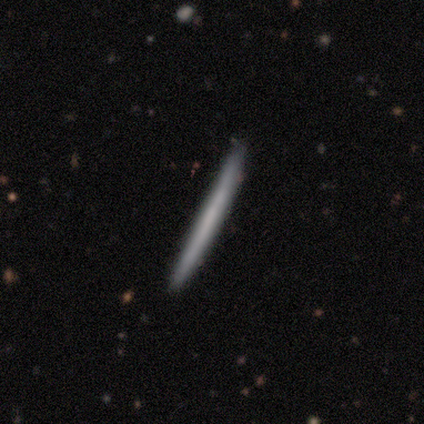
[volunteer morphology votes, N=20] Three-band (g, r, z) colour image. It shows a smooth galaxy with no disk features (50%, tied with featured or disk) that is cigar-shaped (100%). Merging: none (95%).